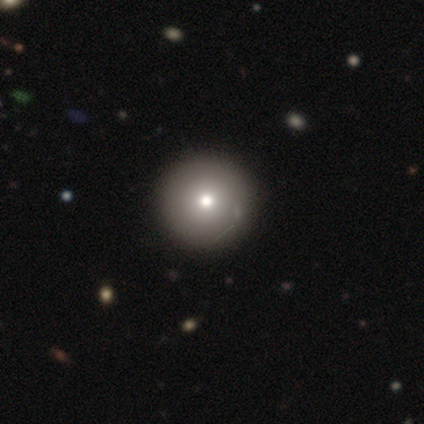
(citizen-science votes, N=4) This appears to be a smooth galaxy with no disk features (100%) that is round (100%). Merging: none (100%).